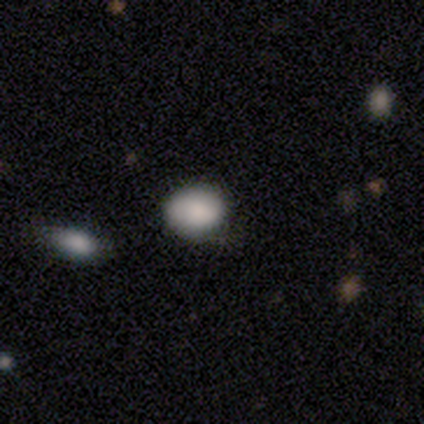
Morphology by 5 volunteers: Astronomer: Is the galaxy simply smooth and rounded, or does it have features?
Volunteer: smooth — 80%.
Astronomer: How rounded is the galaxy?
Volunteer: in between — 75%.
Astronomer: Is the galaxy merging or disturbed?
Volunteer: none — 75%.